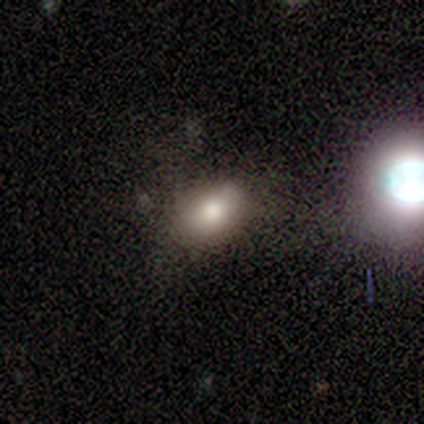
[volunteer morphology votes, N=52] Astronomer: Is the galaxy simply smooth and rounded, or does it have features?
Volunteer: smooth — 87%.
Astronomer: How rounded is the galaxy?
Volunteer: in between — 89%.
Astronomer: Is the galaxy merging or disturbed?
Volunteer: none — 68%.